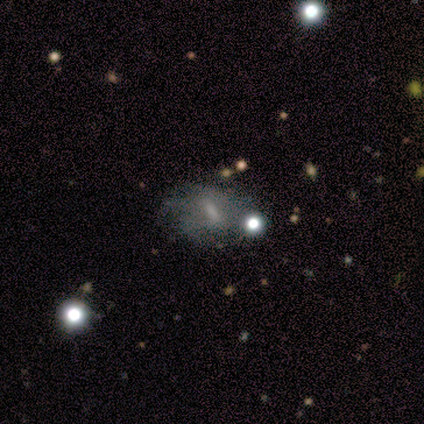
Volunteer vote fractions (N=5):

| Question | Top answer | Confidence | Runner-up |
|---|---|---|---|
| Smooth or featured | smooth | 60% | featured or disk (40%) |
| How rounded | in between | 100% | — |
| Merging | major disturbance | 60% | none (20%) |